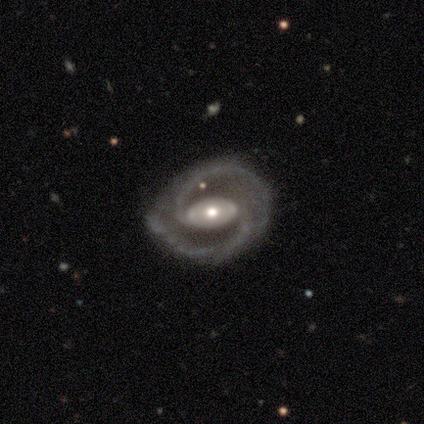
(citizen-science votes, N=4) Smooth or featured? featured or disk (100%)
Edge-on disk? no (100%)
Bar? no (100%)
Spiral arms? yes (100%)
Spiral winding? medium (50%)
Spiral arm count? 2 (100%)
Bulge size? moderate (75%)
Merging? none (100%)